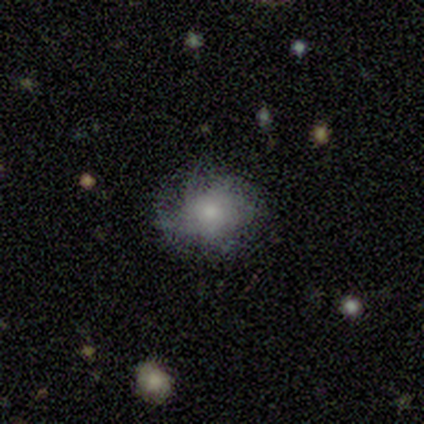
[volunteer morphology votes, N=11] type=smooth (55%); roundness=round (83%); merging=none (56%).